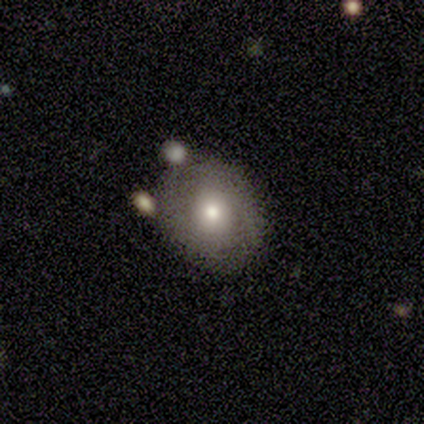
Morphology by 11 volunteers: Smooth or featured?
  - smooth: 82% *
  - featured or disk: 18%
  - star or artifact: 0%
How rounded?
  - round: 78% *
  - in between: 22%
  - cigar-shaped: 0%
Merging?
  - none: 45% *
  - merger: 36%
  - minor disturbance: 18%
  - major disturbance: 0%